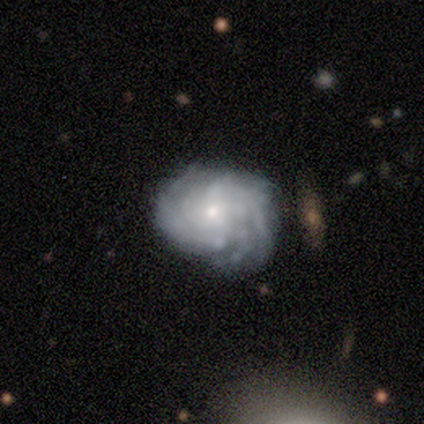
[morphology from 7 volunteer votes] This is clearly a featured or disk galaxy (86%). It is clearly not viewed edge-on (83%). Bar: clearly no (80%). Spiral arm pattern: clearly yes (80%). Spiral arm count: marginally 2 (25%, tied with 4, more than 4 and can't tell). Spiral winding: likely tight (75%). Central bulge: clearly small (80%). Merging: possibly none (57%).